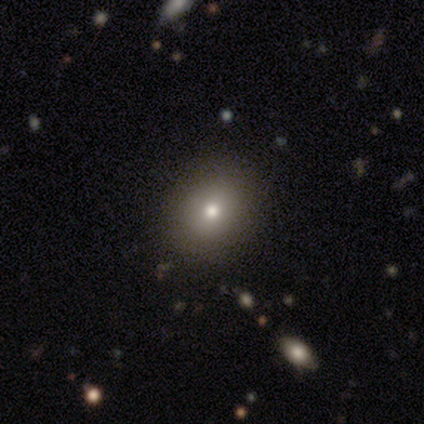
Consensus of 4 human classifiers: A smooth galaxy with no disk features (75%) that is round (100%). Merging: none (50%).